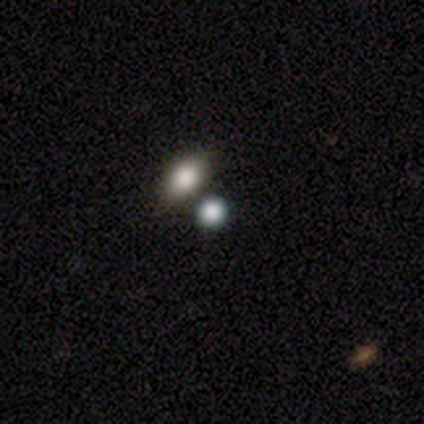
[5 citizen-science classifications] Smooth or featured: smooth — 80% (star or artifact — 20%)
How rounded: round — 100%
Merging: none — 100%